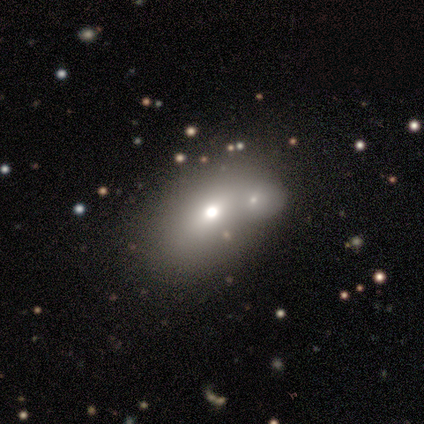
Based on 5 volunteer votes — smooth-or-featured: smooth: 100% | featured or disk: 0% | star or artifact: 0%
  how-rounded: in between: 60% | round: 40% | cigar-shaped: 0%
  merging: merger: 60% | none: 20% | minor disturbance: 20% | major disturbance: 0%